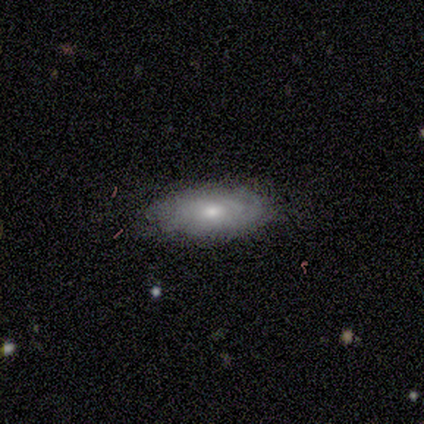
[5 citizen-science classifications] A smooth galaxy with no disk features (60%) that is in between round and cigar-shaped (100%).

Vote fractions:
- Smooth or featured? smooth: 60% / featured or disk: 40% / star or artifact: 0%
- How rounded? in between: 100% / round: 0% / cigar-shaped: 0%
- Merging? minor disturbance: 60% / none: 40% / major disturbance: 0% / merger: 0%